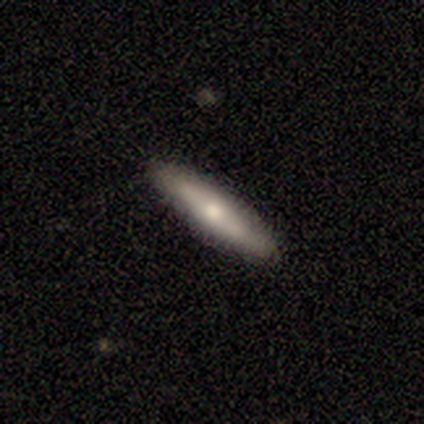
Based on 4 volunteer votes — featured or disk 75%, smooth 25%, star or artifact 0%. Down the decision tree: edge-on disk — yes (100%); edge-on bulge — rounded (100%); merging — none (100%).